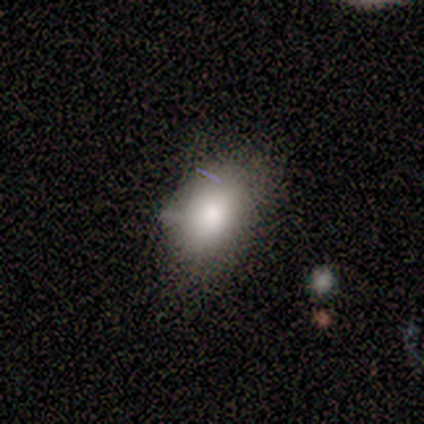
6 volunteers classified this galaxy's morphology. type=smooth (67%); roundness=in between (100%); merging=none (67%).